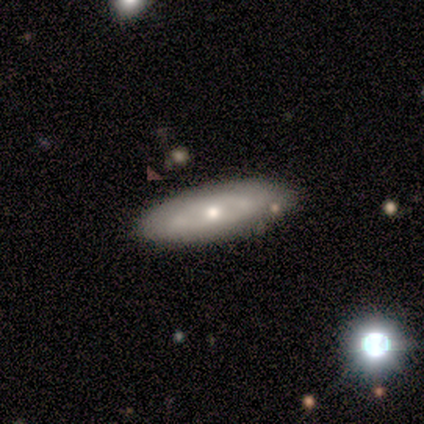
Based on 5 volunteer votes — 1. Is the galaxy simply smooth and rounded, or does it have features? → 60% featured or disk, 40% smooth, 0% star or artifact.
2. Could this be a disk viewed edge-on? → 67% no, 33% yes.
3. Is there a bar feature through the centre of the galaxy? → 50% weak (tied), 50% no (tied), 0% strong.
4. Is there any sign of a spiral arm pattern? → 50% yes (tied), 50% no (tied).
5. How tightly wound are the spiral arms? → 100% medium, 0% tight, 0% loose.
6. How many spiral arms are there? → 100% can't tell, 0% 1, 0% 2, 0% 3, 0% 4, 0% more than 4.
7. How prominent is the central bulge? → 100% moderate, 0% dominant, 0% large, 0% small, 0% none.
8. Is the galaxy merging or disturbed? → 100% none, 0% minor disturbance, 0% major disturbance, 0% merger.